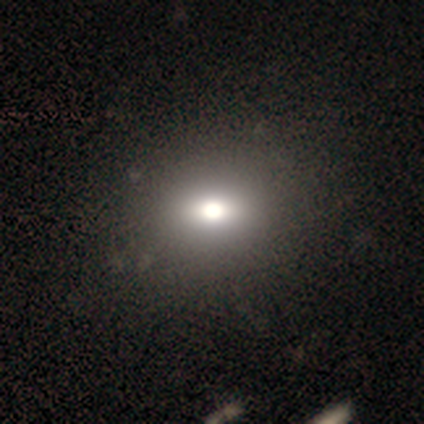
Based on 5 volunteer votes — Smooth or featured: smooth — 80% (star or artifact — 20%)
How rounded: round — 75% (in between — 25%)
Merging: none — 100%